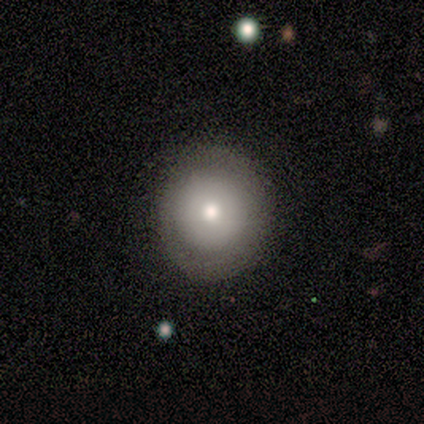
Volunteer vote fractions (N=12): A smooth galaxy with no disk features (67%) that is round (75%). Merging: none (90%).